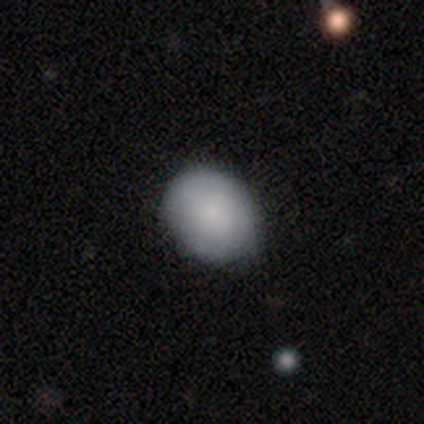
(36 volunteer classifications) A smooth galaxy with no disk features (86%) that is in between round and cigar-shaped (52%). Merging: none (82%).